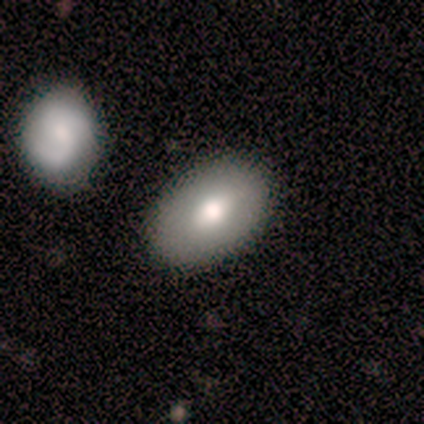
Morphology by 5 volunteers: Smooth or featured: smooth — 60% (star or artifact — 40%)
How rounded: in between — 100%
Merging: none — 100%